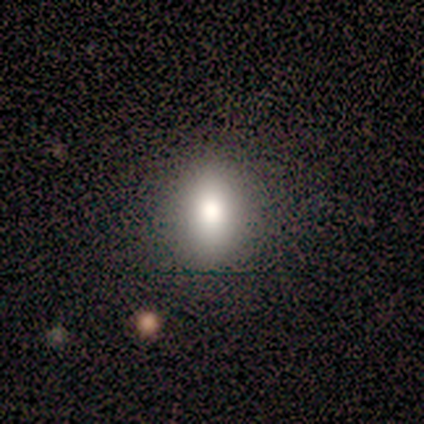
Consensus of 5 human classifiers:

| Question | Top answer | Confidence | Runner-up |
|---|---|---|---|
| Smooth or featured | smooth | 60% | featured or disk (20%) |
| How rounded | in between | 67% | round (33%) |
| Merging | none | 100% | — |